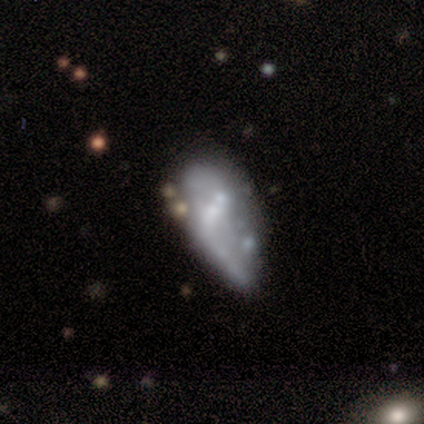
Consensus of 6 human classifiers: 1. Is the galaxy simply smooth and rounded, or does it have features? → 50% smooth (tied), 50% featured or disk (tied), 0% star or artifact.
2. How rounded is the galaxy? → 100% in between, 0% round, 0% cigar-shaped.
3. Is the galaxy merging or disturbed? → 50% major disturbance (tied), 50% merger (tied), 0% none, 0% minor disturbance.